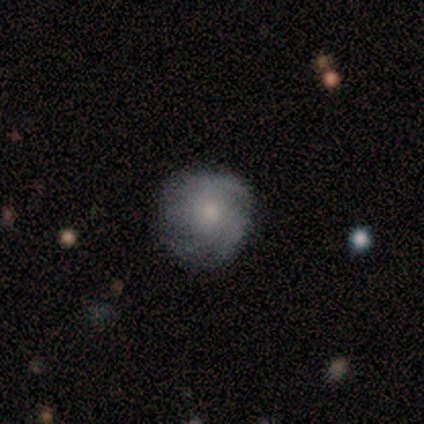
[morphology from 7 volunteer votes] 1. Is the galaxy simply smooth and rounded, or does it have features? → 71% featured or disk, 29% smooth, 0% star or artifact.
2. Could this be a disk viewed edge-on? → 80% no, 20% yes.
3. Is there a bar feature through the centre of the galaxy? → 75% no, 25% strong, 0% weak.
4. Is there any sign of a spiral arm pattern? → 75% yes, 25% no.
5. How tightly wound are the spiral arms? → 67% tight, 33% medium, 0% loose.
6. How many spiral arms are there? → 67% 2, 33% 4, 0% 1, 0% 3, 0% more than 4, 0% can't tell.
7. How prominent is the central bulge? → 50% moderate (tied), 50% small (tied), 0% dominant, 0% large, 0% none.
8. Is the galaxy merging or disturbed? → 57% none, 29% minor disturbance, 14% merger, 0% major disturbance.